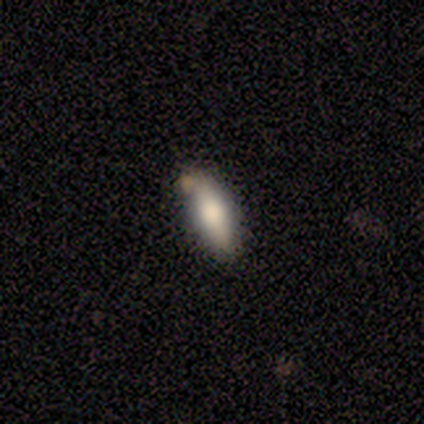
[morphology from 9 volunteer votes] Smooth or featured?
  - smooth: 67% *
  - featured or disk: 33%
  - star or artifact: 0%
How rounded?
  - in between: 67% *
  - cigar-shaped: 33%
  - round: 0%
Merging?
  - none: 44% *
  - merger: 33%
  - minor disturbance: 22%
  - major disturbance: 0%